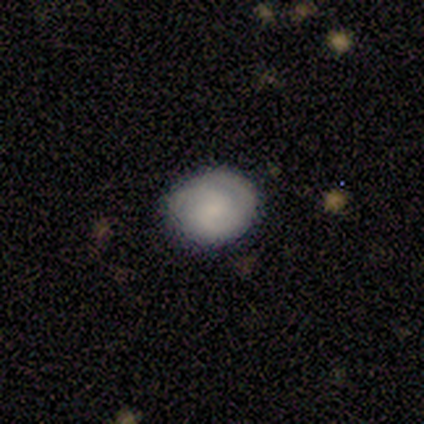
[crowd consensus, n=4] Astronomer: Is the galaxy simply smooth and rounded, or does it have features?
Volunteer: featured or disk — 75%.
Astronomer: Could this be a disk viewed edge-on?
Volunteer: no — 100%.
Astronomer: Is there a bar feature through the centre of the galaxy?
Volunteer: no — 67%.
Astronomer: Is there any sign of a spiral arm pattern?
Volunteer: yes — 100%.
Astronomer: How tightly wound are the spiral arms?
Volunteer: tight — 100%.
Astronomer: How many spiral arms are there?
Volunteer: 1 — 33%, tied with 2 and 3 at 33%.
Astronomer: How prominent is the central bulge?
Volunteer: small — 67%.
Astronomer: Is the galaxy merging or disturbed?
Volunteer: none — 75%.